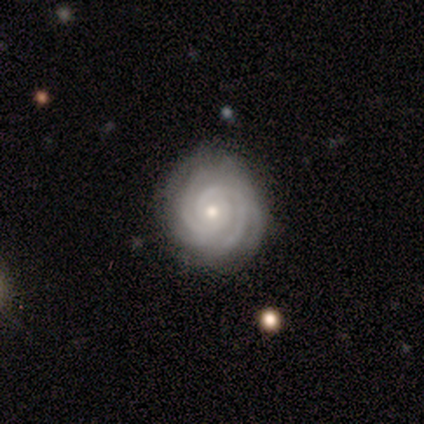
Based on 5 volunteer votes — Smooth or featured? featured or disk (100%)
Edge-on disk? no (100%)
Bar? no (60%)
Spiral arms? yes (100%)
Spiral winding? tight (80%)
Spiral arm count? 2 (40%, tied with 3)
Bulge size? small (80%)
Merging? none (80%)